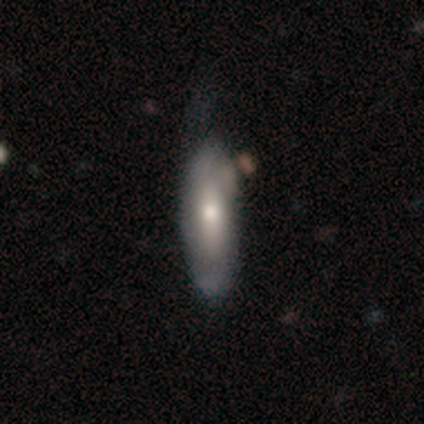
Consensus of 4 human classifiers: Morphology: type=smooth (50%, tied with featured or disk); roundness=in between (50%, tied with cigar-shaped); merging=none (25%, tied with minor disturbance, major disturbance and merger).